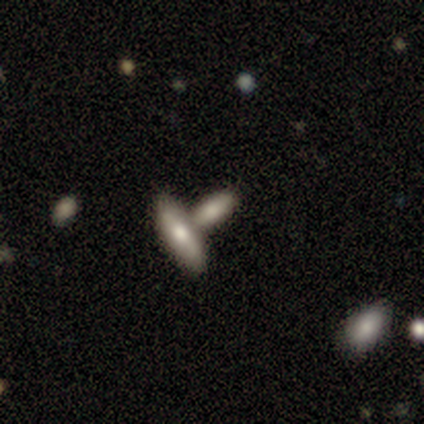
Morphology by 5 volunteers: Overall: smooth (60%; featured or disk 40%). How rounded: cigar-shaped (67%; in between 33%). Merging: none (60%; merger 40%).